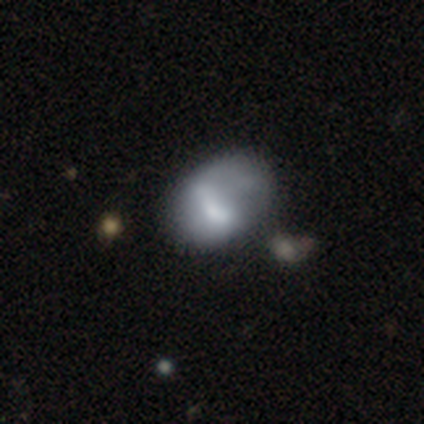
This appears to be a smooth galaxy with no disk features (40%, tied with featured or disk) that is round (50%, tied with in between). Merging: merger (50%).